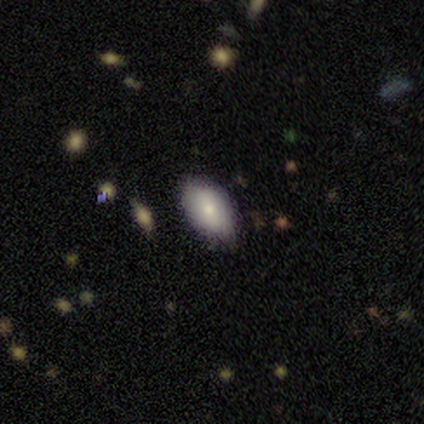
Volunteers were most divided on "smooth or featured": smooth: 75%, star or artifact: 25%, featured or disk: 0%. More confident: how rounded — in between (100%); merging — none (100%).